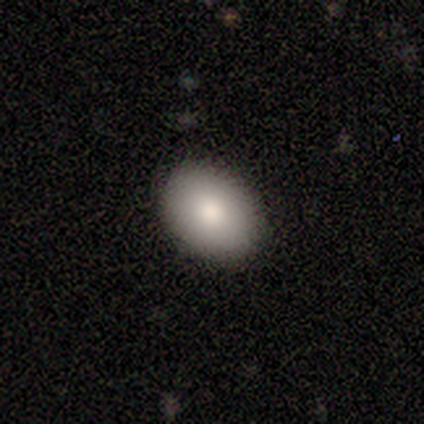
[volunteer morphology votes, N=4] type=smooth (75%); roundness=in between (67%); merging=none (100%).